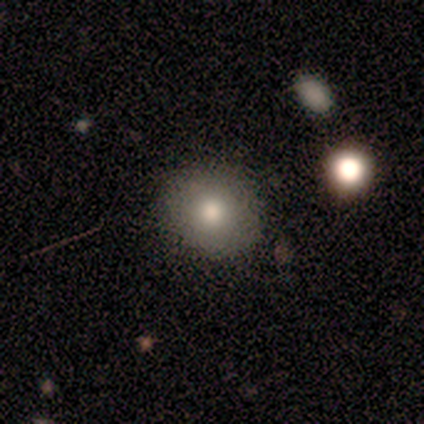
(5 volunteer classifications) This is clearly a smooth galaxy (80%). How rounded: likely round (75%). Merging: clearly none (100%).